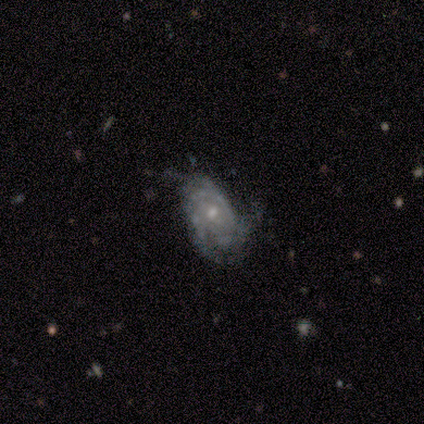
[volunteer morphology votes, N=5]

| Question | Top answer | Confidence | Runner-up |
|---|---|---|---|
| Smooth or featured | featured or disk | 60% | smooth (40%) |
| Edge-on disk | no | 100% | — |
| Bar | weak | 100% | — |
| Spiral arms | yes | 100% | — |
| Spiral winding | medium | 100% | — |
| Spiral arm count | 2 | 33% | tied: 3 (33%), can't tell (33%) |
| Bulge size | small | 100% | — |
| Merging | none | 60% | minor disturbance (20%) |